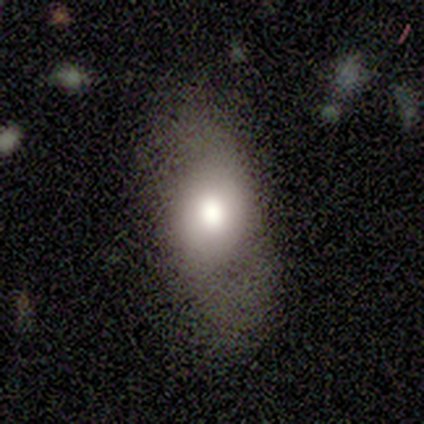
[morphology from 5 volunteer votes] Q: Smooth or featured?
A: smooth (80%); runner-up: featured or disk (20%)
Q: How rounded?
A: in between (75%); runner-up: round (25%)
Q: Merging?
A: none (60%); runner-up: minor disturbance (20%)